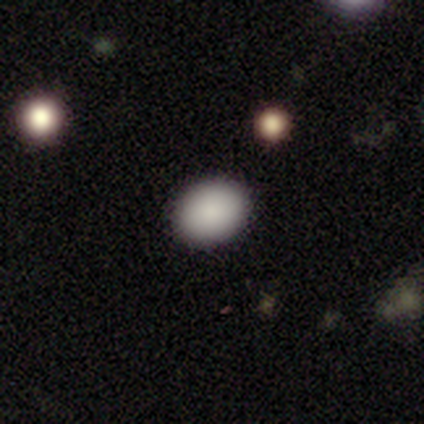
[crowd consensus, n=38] Smooth or featured? 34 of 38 (89%) said smooth. How rounded? 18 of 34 (53%) said round. Merging? 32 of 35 (91%) said none.